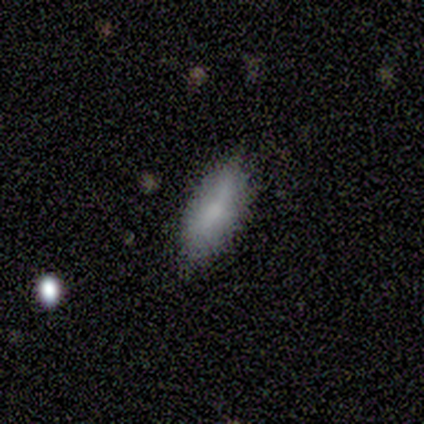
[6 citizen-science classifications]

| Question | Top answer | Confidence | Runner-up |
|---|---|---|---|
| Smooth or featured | smooth | 100% | — |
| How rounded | in between | 83% | cigar-shaped (17%) |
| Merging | none | 83% | minor disturbance (17%) |